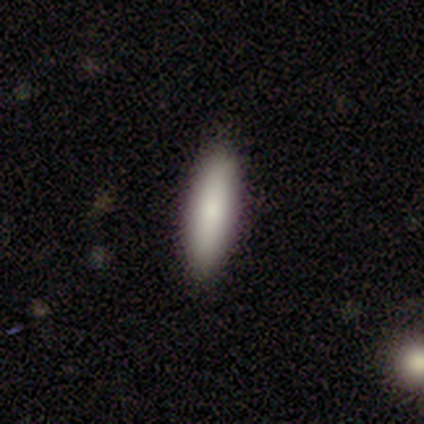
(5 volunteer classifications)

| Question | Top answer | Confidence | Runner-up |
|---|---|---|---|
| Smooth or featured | smooth | 80% | featured or disk (20%) |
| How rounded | cigar-shaped | 100% | — |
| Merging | none | 100% | — |